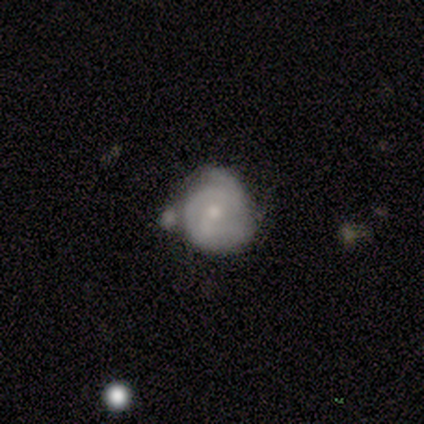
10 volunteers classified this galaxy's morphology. type=smooth (50%, tied with featured or disk); roundness=round (100%); merging=minor disturbance (40%).